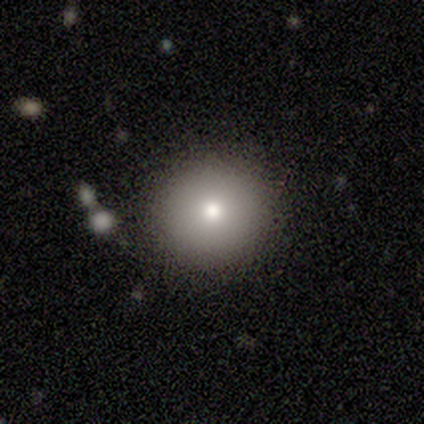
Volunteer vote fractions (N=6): smooth-or-featured: smooth: 67% | featured or disk: 17% | star or artifact: 17%
  how-rounded: round: 100% | in between: 0% | cigar-shaped: 0%
  merging: none: 100% | minor disturbance: 0% | major disturbance: 0% | merger: 0%